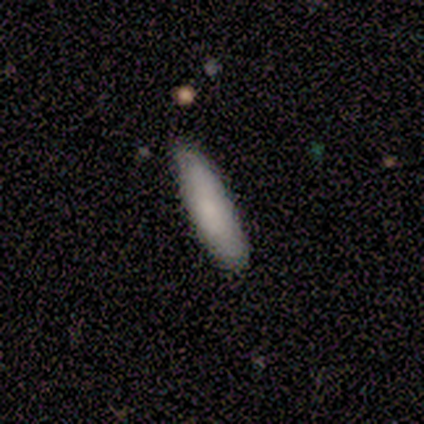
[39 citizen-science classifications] Smooth or featured: smooth — 82% (featured or disk — 15%)
How rounded: cigar-shaped — 66% (in between — 34%)
Merging: none — 74% (minor disturbance — 24%)